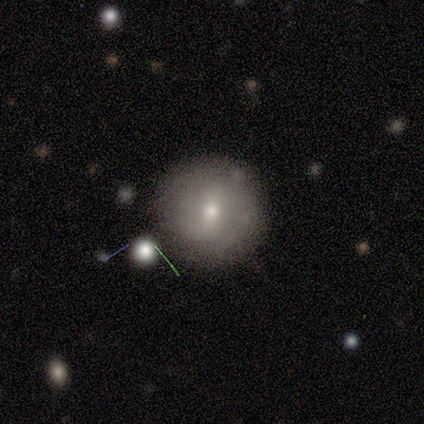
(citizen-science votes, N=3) Smooth or featured: smooth — 67% (featured or disk — 33%)
How rounded: round — 100%
Merging: none — 100%